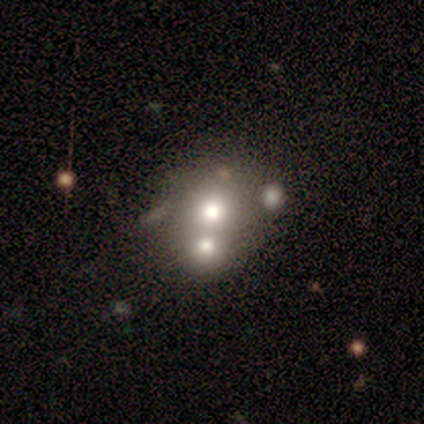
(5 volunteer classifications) smooth_or_featured: smooth (p=0.80) [alt: star or artifact p=0.20]
how_rounded: round (p=0.75) [alt: in between p=0.25]
merging: none (p=0.50) [tied with: merger p=0.50]